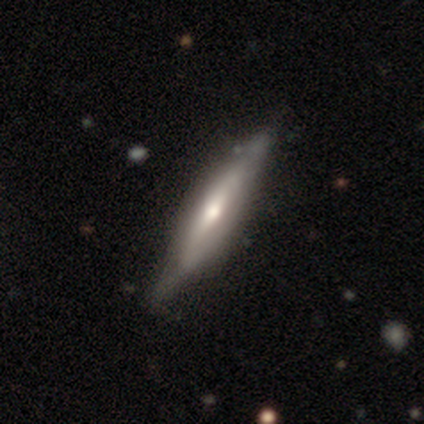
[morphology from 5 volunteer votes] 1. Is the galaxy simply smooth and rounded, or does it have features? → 60% smooth, 40% featured or disk, 0% star or artifact.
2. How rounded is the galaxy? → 67% cigar-shaped, 33% in between, 0% round.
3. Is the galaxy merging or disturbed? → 60% none, 20% minor disturbance, 20% major disturbance, 0% merger.